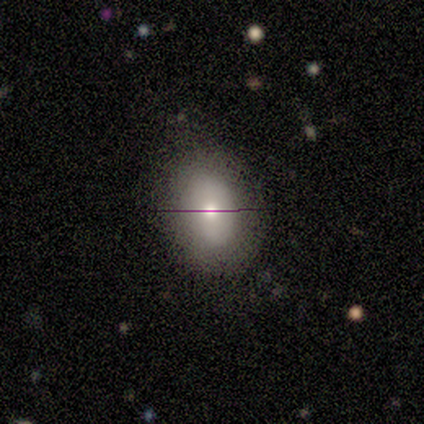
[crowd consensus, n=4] This is likely a smooth galaxy (75%). How rounded: likely round (67%). Merging: clearly none (100%).